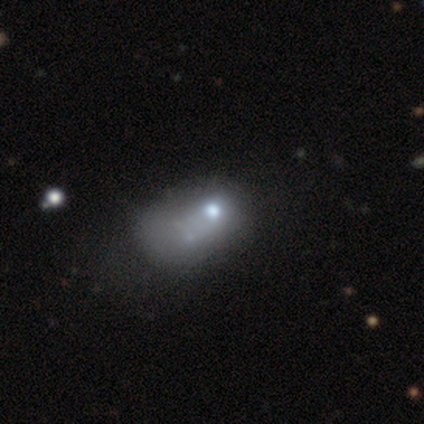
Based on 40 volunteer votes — This appears to be a smooth galaxy with no disk features (48%) that is in between round and cigar-shaped (58%). Merging: major disturbance (27%).